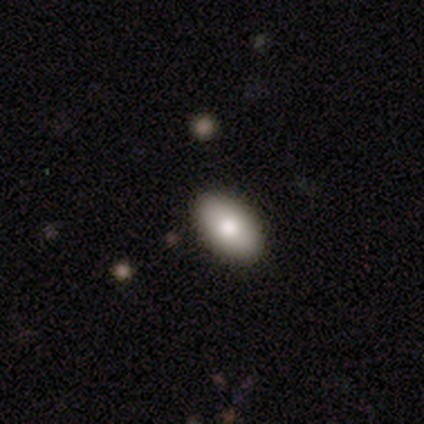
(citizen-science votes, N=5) This is clearly a smooth galaxy (80%). How rounded: clearly in between (100%). Merging: clearly none (80%).